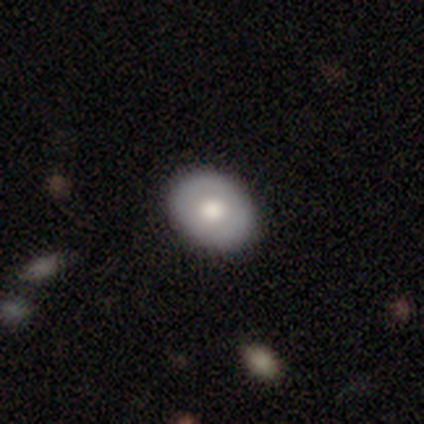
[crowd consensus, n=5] Smooth or featured: smooth — 60% (featured or disk — 40%)
How rounded: round — 67% (in between — 33%)
Merging: none — 100%